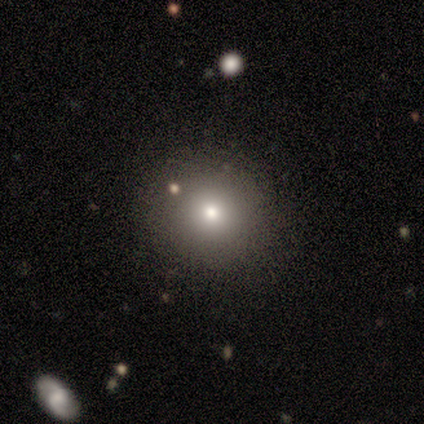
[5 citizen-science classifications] Morphology: type=smooth (60%); roundness=round (100%); merging=none (100%).